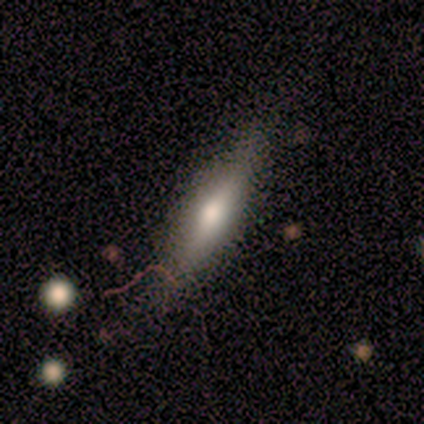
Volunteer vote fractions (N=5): A featured or disk galaxy (60%) viewed edge-on (100%) with a rounded central bulge (100%).

Vote fractions:
- Smooth or featured? featured or disk: 60% / smooth: 40% / star or artifact: 0%
- Edge-on disk? yes: 100% / no: 0%
- Edge-on bulge? rounded: 100% / boxy: 0% / none: 0%
- Merging? none: 80% / minor disturbance: 20% / major disturbance: 0% / merger: 0%